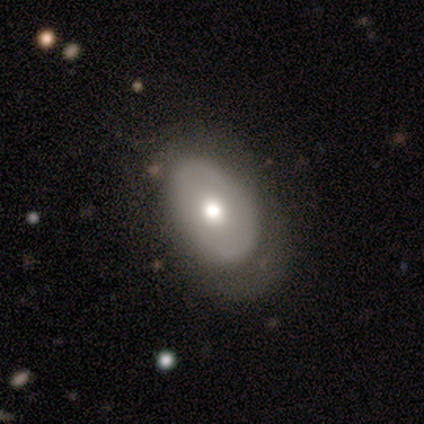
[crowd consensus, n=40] featured or disk 50%, smooth 42%, star or artifact 8%. Down the decision tree: edge-on disk — no (85%); bar — no (88%); spiral arms — no (82%); bulge size — moderate (59%); merging — none (49%).